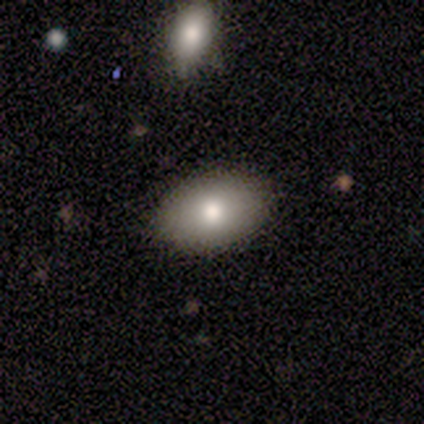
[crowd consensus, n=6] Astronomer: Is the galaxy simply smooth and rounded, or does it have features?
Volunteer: smooth — 83%.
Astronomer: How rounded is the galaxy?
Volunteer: in between — 100%.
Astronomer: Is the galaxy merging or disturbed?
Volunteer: none — 100%.